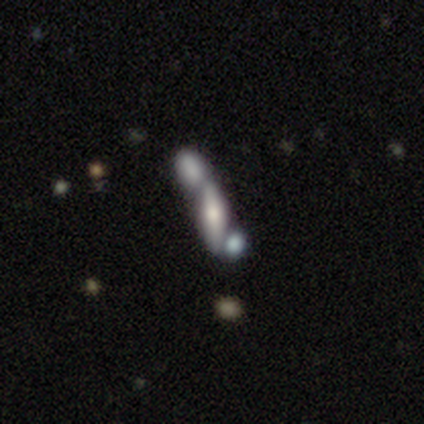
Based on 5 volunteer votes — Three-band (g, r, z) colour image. It shows a featured or disk galaxy (60%) with no bar (100%), no spiral arms (100%) and a large central bulge (50%, tied with small). Merging: merger (75%).